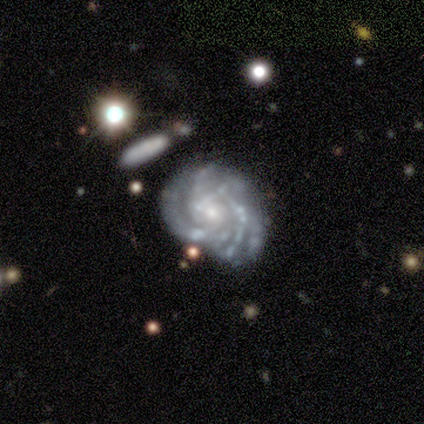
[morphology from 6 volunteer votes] A featured or disk galaxy (100%) with a weak bar (50%, tied with no), more than 4 (50%) tight (83%) spiral arms (100%) and a moderate central bulge (50%, tied with small). Merging: none (67%).